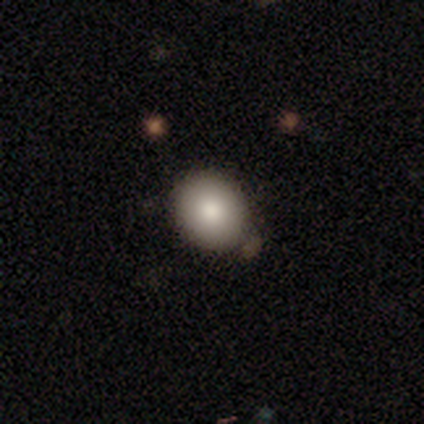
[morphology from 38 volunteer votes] Volunteers were most divided on "how rounded": round: 65%, in between: 35%, cigar-shaped: 0%. More confident: smooth or featured — smooth (89%); merging — none (81%).